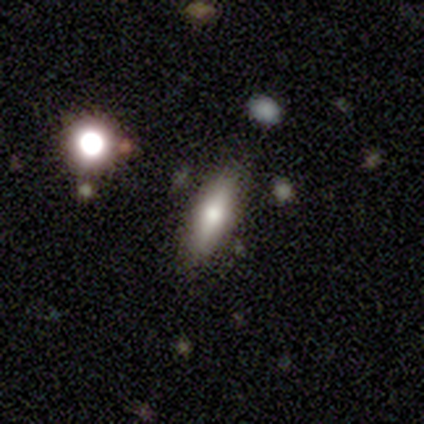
This is likely a smooth galaxy (65%). How rounded: possibly cigar-shaped (54%). Merging: clearly none (84%).